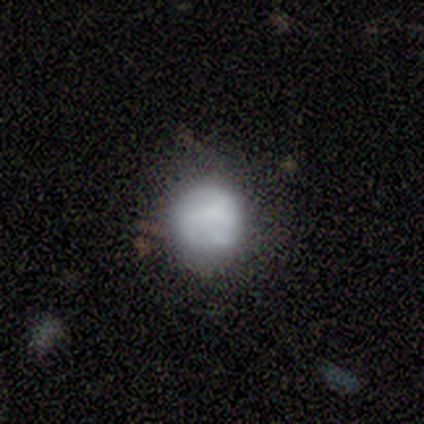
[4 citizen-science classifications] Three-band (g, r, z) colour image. It shows a smooth galaxy with no disk features (100%) that is round (100%). Merging: none (75%).